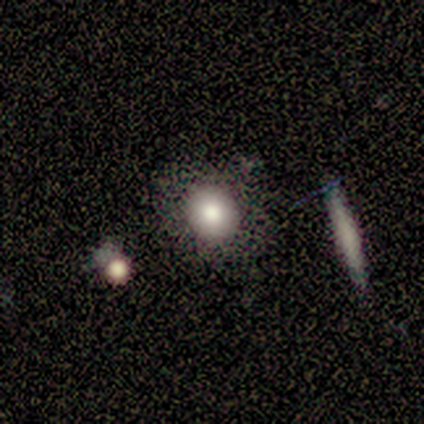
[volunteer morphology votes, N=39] Overall: smooth (69%). How rounded: round (81%). Merging: none (75%).